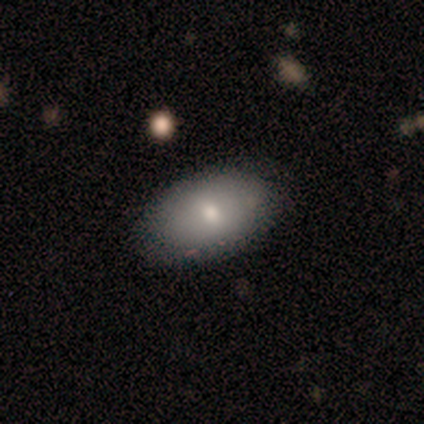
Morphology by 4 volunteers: smooth 100%, featured or disk 0%, star or artifact 0%. Down the decision tree: how rounded — in between (100%); merging — none (100%).